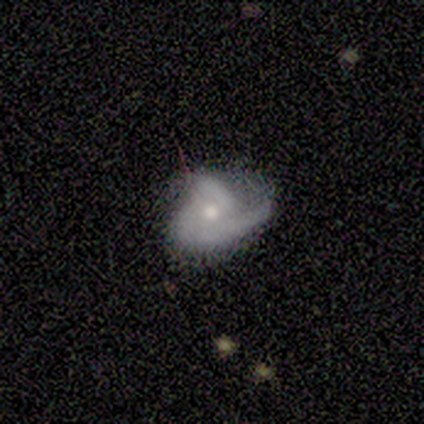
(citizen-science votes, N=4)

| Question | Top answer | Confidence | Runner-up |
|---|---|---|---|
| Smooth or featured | smooth | 50% | featured or disk (25%) |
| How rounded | round | 50% | tied: in between (50%) |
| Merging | none | 67% | major disturbance (33%) |